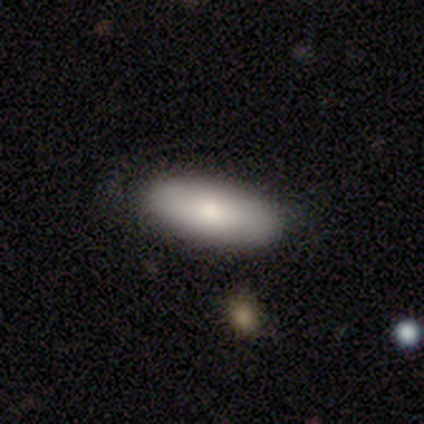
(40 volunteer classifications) Q: Smooth or featured?
A: smooth (68%); runner-up: featured or disk (22%)
Q: How rounded?
A: in between (93%); runner-up: cigar-shaped (7%)
Q: Merging?
A: none (83%); runner-up: minor disturbance (14%)